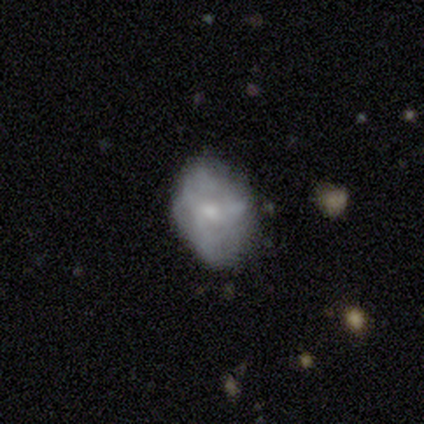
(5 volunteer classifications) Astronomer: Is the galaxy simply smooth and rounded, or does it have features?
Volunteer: smooth — 80%.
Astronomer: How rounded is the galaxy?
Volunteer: round — 50%, tied with in between at 50%.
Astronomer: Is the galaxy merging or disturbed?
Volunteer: none — 100%.